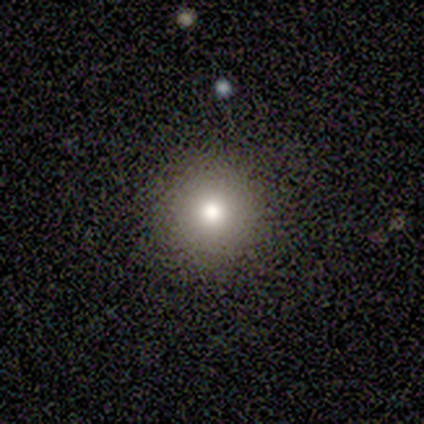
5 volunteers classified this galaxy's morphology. Q: Smooth or featured?
A: smooth (80%); runner-up: star or artifact (20%)
Q: How rounded?
A: round (100%)
Q: Merging?
A: none (100%)